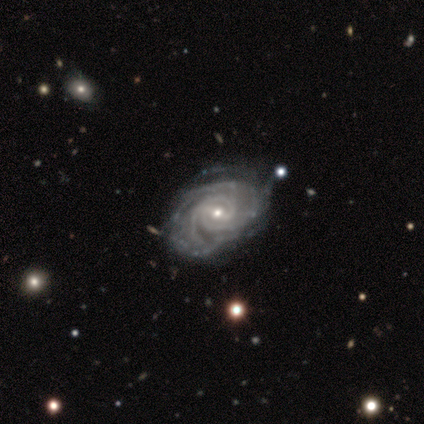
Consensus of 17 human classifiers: A featured or disk galaxy (94%) with a weak bar (44%), 2 (25%, tied with 3 and can't tell) tight (81%) spiral arms (100%) and a small central bulge (81%).

Vote fractions:
- Smooth or featured? featured or disk: 94% / star or artifact: 6% / smooth: 0%
- Edge-on disk? no: 100% / yes: 0%
- Bar? weak: 44% / no: 31% / strong: 25%
- Spiral arms? yes: 100% / no: 0%
- Spiral winding? tight: 81% / medium: 19% / loose: 0%
- Spiral arm count? 2: 25% (tied) / 3: 25% (tied) / can't tell: 25% (tied) / 4: 19% / more than 4: 6% / 1: 0%
- Bulge size? small: 81% / moderate: 19% / dominant: 0% / large: 0% / none: 0%
- Merging? none: 62% / minor disturbance: 31% / major disturbance: 6% / merger: 0%